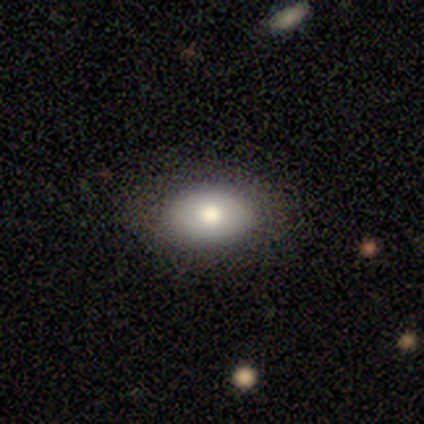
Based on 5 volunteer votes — Morphology: type=smooth (100%); roundness=in between (100%); merging=none (100%).